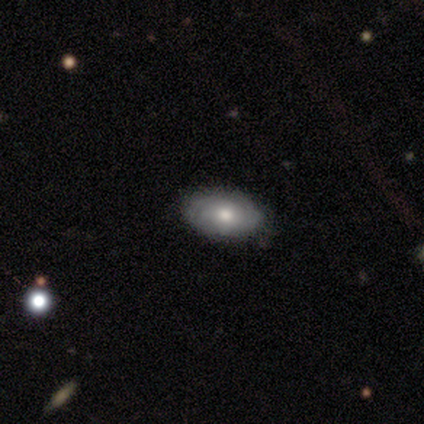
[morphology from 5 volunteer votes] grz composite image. It shows a smooth galaxy with no disk features (60%) that is in between round and cigar-shaped (67%). Merging: none (100%).